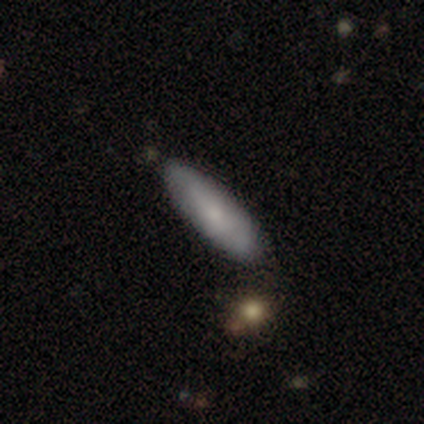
Volunteers were most divided on "how rounded" (2-way tie): in between: 50%, cigar-shaped: 50%, round: 0%. More confident: smooth or featured — smooth (100%); merging — none (75%).